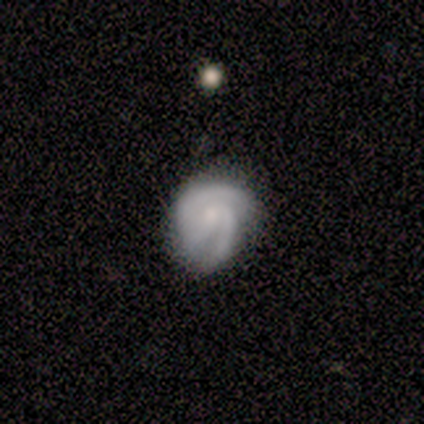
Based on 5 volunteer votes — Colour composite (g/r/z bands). It shows a featured or disk galaxy (100%) with a weak bar (60%), 2 (80%) tight (60%) spiral arms (100%) and a moderate central bulge (60%). Merging: none (40%, tied with major disturbance).